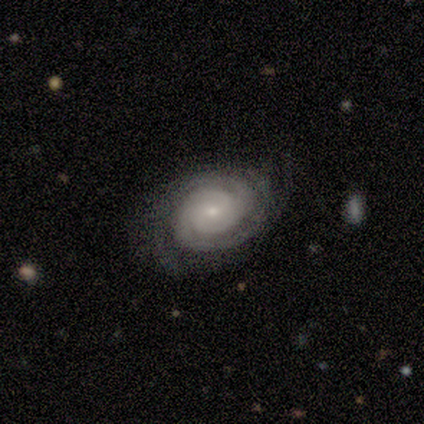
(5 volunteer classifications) A featured or disk galaxy (100%) with no bar (100%), 2 (60%) tight (100%) spiral arms (100%) and a small central bulge (80%). Merging: none (100%).